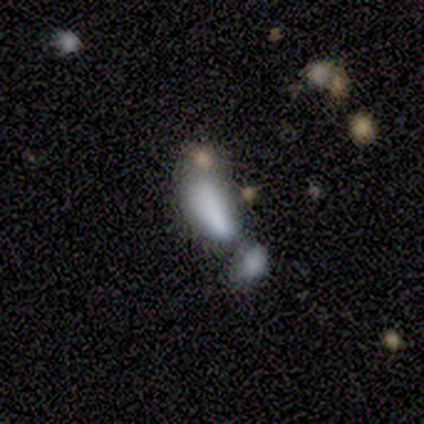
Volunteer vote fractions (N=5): A featured or disk galaxy (60%) with no bar (100%), no spiral arms (100%) and a dominant central bulge (33%, tied with small and none). Merging: merger (60%).